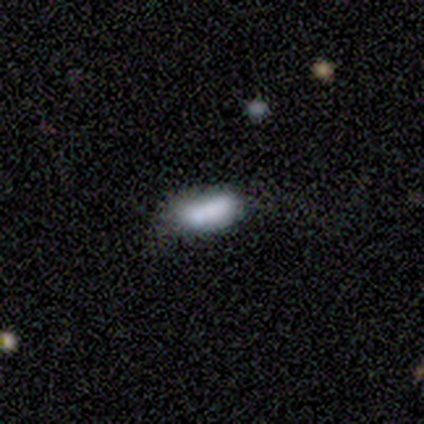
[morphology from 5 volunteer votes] type=smooth (80%); roundness=in between (100%); merging=none (50%).